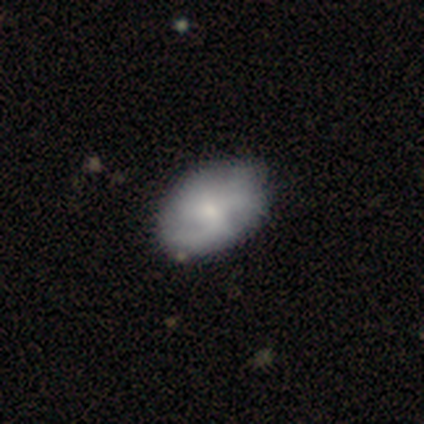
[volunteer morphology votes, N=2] This appears to be a smooth galaxy with no disk features (50%, tied with featured or disk) that is in between round and cigar-shaped (100%). Merging: none (100%).